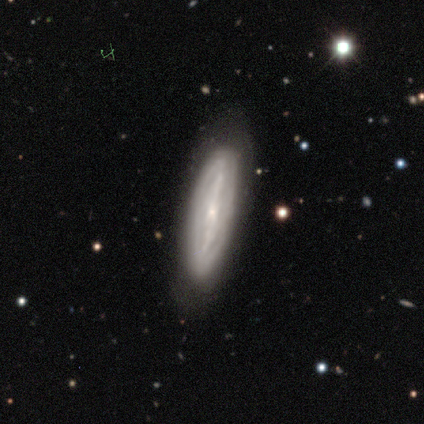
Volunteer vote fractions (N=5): This appears to be a featured or disk galaxy (100%) with a strong bar (75%), medium (67%) spiral arms (75%) and a small central bulge (50%). Merging: none (80%).